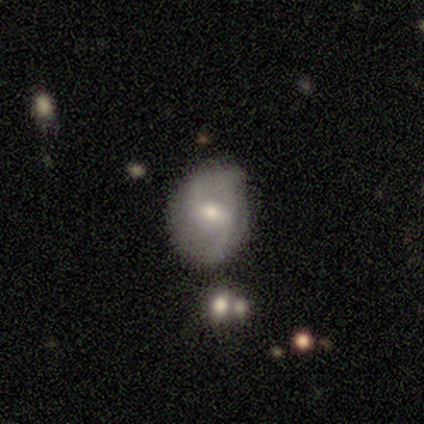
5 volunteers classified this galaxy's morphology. This is clearly a featured or disk galaxy (80%). It is likely not viewed edge-on (75%). Bar: likely weak (67%). Spiral arm pattern: clearly yes (100%). Spiral arm count: clearly 2 (100%). Spiral winding: likely loose (67%). Central bulge: clearly moderate (100%). Merging: clearly none (80%).